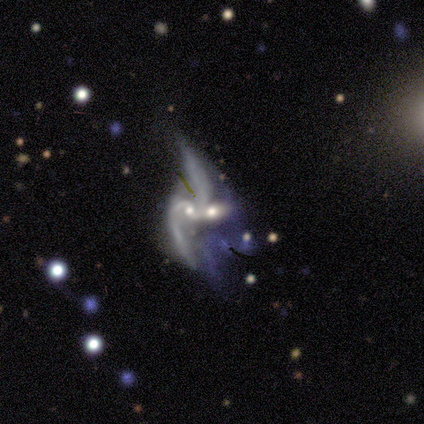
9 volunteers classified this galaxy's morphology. smooth-or-featured: featured or disk: 100% | smooth: 0% | star or artifact: 0%
  disk-edge-on: no: 89% | yes: 11%
    bar: no: 75% | weak: 25% | strong: 0%
    has-spiral-arms: yes: 88% | no: 12%
      spiral-winding: loose: 86% | medium: 14% | tight: 0%
      spiral-arm-count: 2: 71% | 3: 14% | 4: 14% | 1: 0% | more than 4: 0% | can't tell: 0%
    bulge-size: small: 50% | moderate: 38% | none: 12% | dominant: 0% | large: 0%
  merging: merger: 67% | major disturbance: 22% | none: 11% | minor disturbance: 0%